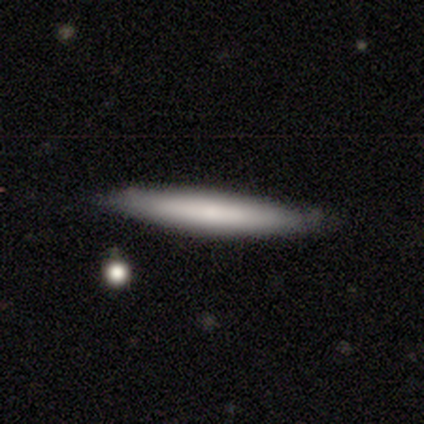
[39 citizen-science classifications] smooth-or-featured: smooth: 69% | featured or disk: 31% | star or artifact: 0%
  how-rounded: cigar-shaped: 93% | in between: 7% | round: 0%
  merging: none: 44% | minor disturbance: 13% | merger: 8% | major disturbance: 0%